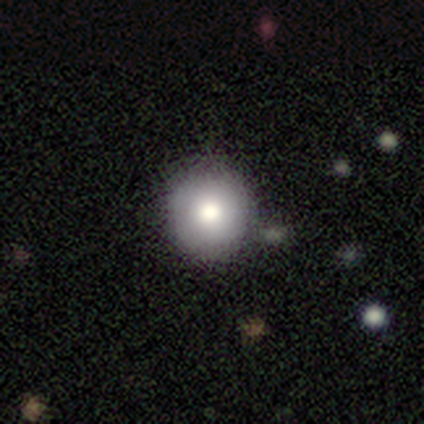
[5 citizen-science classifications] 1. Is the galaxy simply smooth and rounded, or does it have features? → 60% smooth, 40% featured or disk, 0% star or artifact.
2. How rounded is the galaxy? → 100% round, 0% in between, 0% cigar-shaped.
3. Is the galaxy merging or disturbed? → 80% none, 20% minor disturbance, 0% major disturbance, 0% merger.